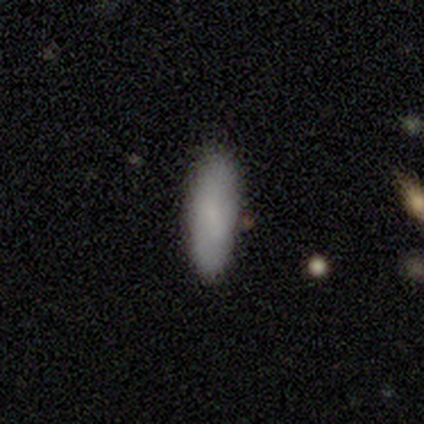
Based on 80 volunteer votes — Smooth or featured? smooth (88%)
How rounded? in between (66%)
Merging? none (59%)